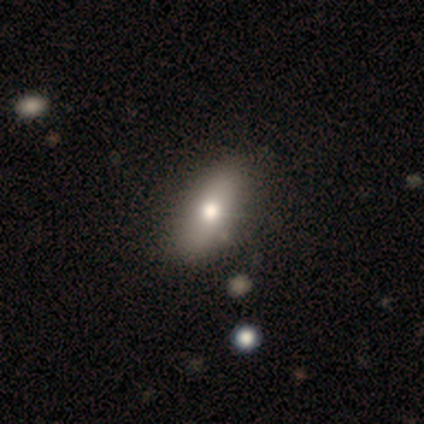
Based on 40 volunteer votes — This is likely a smooth galaxy (62%). How rounded: clearly in between (88%). Merging: possibly none (55%).